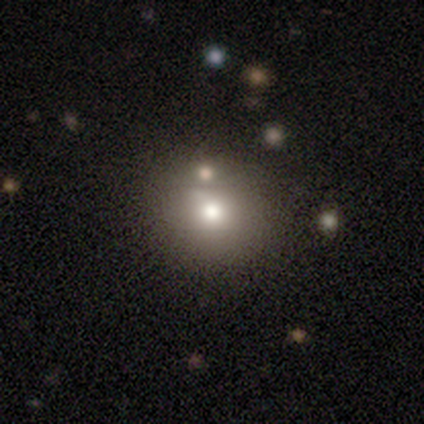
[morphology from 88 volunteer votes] Smooth or featured: smooth — 74% (star or artifact — 16%)
How rounded: round — 86% (in between — 14%)
Merging: none — 68% (minor disturbance — 15%)